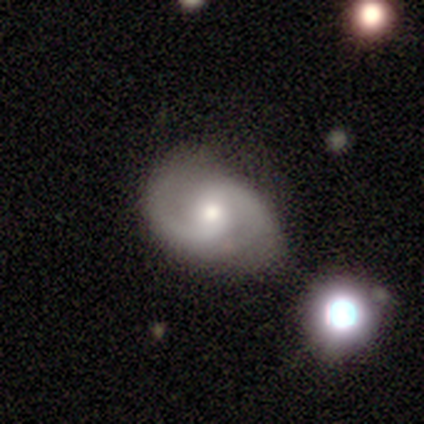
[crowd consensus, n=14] Morphology: type=featured or disk (79%); edge-on=no (100%); bar=no (73%); spiral arms=yes (100%); winding=medium (73%); arm count=2 (100%); bulge=moderate (55%); merging=minor disturbance (54%).